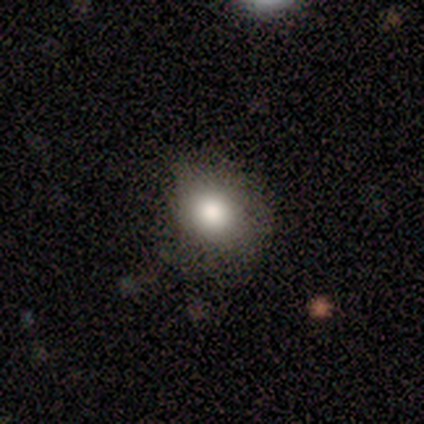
Smooth or featured: smooth — 100%
How rounded: round — 60% (in between — 40%)
Merging: none — 60% (minor disturbance — 40%)